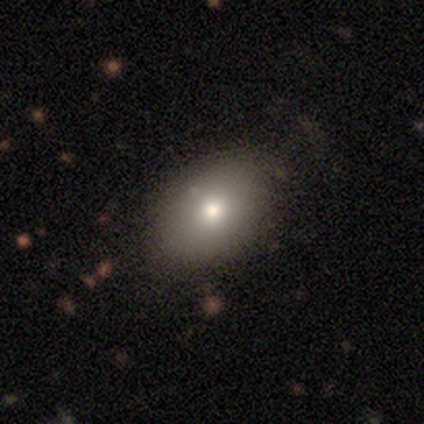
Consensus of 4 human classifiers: A smooth galaxy with no disk features (100%) that is in between round and cigar-shaped (75%).

Vote fractions:
- Smooth or featured? smooth: 100% / featured or disk: 0% / star or artifact: 0%
- How rounded? in between: 75% / round: 25% / cigar-shaped: 0%
- Merging? none: 75% / minor disturbance: 25% / major disturbance: 0% / merger: 0%